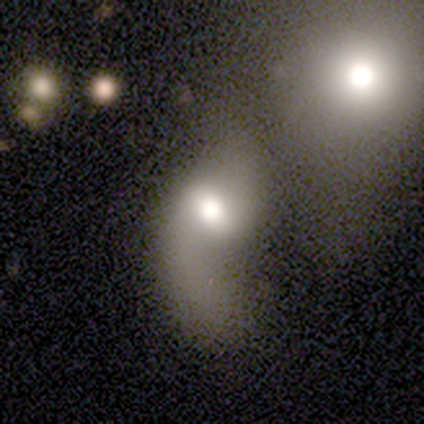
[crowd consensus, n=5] Volunteers were most divided on "smooth or featured": smooth: 80%, featured or disk: 20%, star or artifact: 0%. More confident: how rounded — in between (100%); merging — merger (80%).